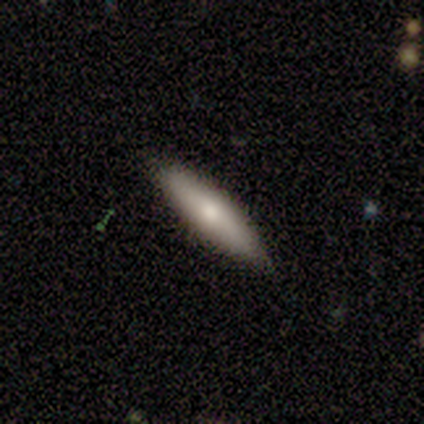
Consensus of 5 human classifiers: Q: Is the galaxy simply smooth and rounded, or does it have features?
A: smooth — 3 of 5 (60%).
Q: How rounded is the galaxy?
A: cigar-shaped — 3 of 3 (100%).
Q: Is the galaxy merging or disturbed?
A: none — 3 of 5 (60%).